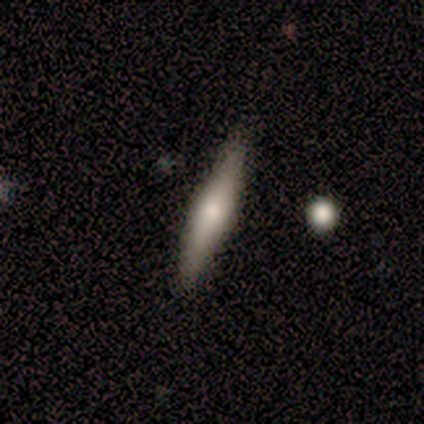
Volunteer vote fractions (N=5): Smooth or featured? smooth (60%)
How rounded? cigar-shaped (67%)
Merging? none (100%)